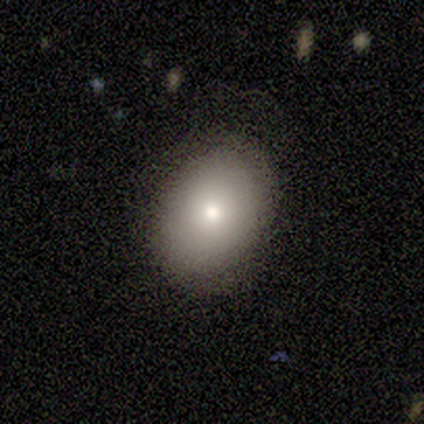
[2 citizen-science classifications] This is clearly a smooth galaxy (100%). How rounded: clearly in between (100%). Merging: clearly none (100%).